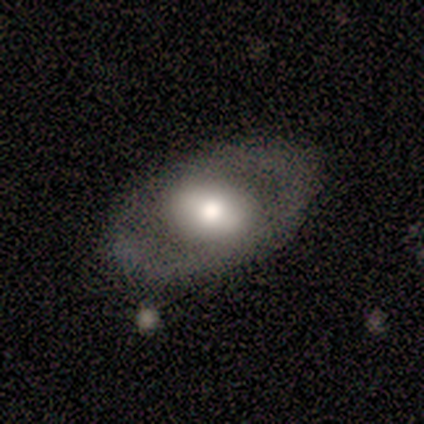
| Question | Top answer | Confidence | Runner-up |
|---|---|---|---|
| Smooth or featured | featured or disk | 59% | smooth (31%) |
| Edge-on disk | no | 83% | yes (17%) |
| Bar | no | 58% | strong (32%) |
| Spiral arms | no | 89% | yes (11%) |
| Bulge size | large | 47% | moderate (32%) |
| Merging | none | 97% | major disturbance (3%) |